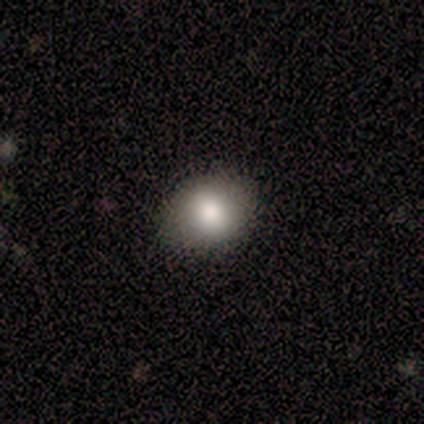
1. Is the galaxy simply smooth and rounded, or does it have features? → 100% smooth, 0% featured or disk, 0% star or artifact.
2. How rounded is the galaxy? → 60% round, 40% in between, 0% cigar-shaped.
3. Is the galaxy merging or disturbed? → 100% none, 0% minor disturbance, 0% major disturbance, 0% merger.